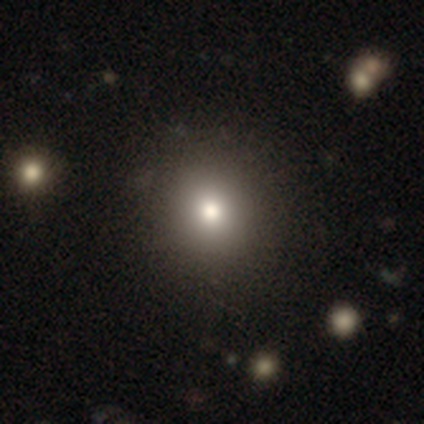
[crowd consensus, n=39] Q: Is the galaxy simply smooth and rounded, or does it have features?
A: smooth — 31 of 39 (79%).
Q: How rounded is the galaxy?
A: round — 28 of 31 (90%).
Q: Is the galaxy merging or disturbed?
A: none — 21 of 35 (60%).